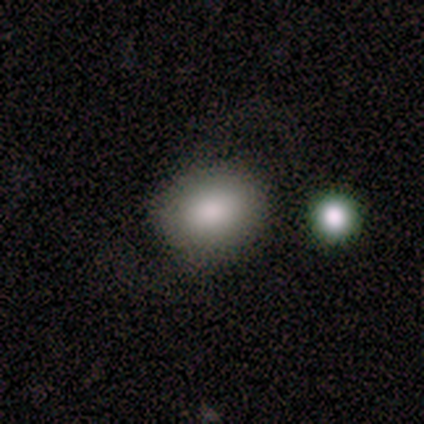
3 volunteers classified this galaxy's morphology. Volunteers were most divided on "how rounded" (2-way tie): round: 50%, in between: 50%, cigar-shaped: 0%. More confident: merging — none (100%); smooth or featured — smooth (67%).